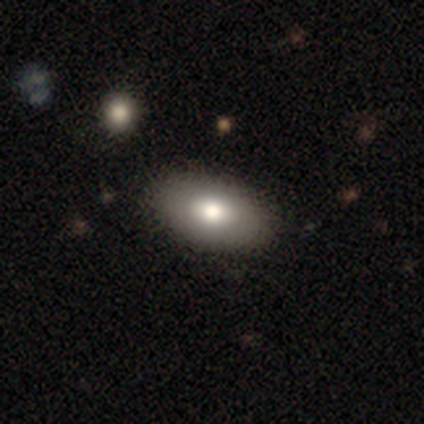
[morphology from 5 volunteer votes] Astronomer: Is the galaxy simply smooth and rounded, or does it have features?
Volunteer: smooth — 60% (runner-up: featured or disk, 40%).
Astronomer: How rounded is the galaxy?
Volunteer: in between — 100%.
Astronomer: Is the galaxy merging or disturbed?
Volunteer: none — 80%.